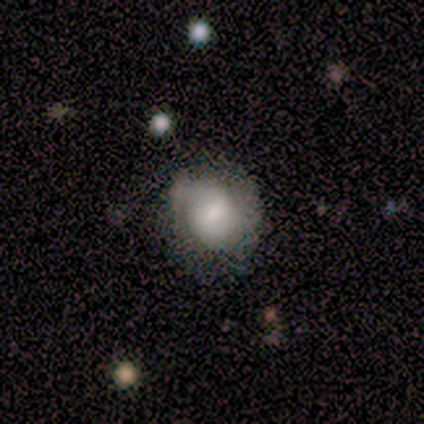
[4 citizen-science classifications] Smooth or featured: smooth — 75% (featured or disk — 25%)
How rounded: in between — 100%
Merging: major disturbance — 50% (none — 25%)